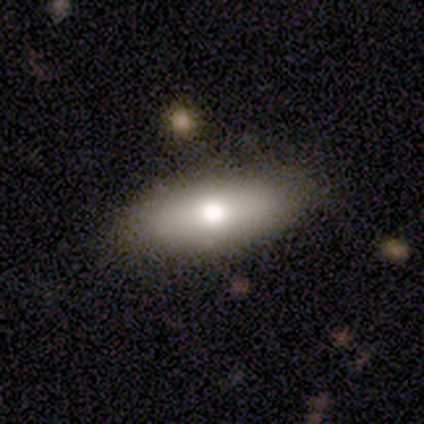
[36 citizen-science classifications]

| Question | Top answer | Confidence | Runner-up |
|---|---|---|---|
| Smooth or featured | smooth | 72% | featured or disk (19%) |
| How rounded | in between | 73% | cigar-shaped (27%) |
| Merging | none | 73% | minor disturbance (18%) |